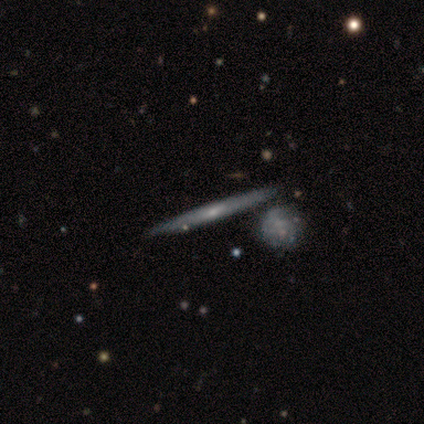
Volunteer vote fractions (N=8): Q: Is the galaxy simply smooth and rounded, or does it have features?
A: featured or disk — 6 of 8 (75%).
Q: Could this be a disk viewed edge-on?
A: yes — 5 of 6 (83%).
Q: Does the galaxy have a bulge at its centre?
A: rounded — 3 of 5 (60%).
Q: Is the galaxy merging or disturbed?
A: none — 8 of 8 (100%).